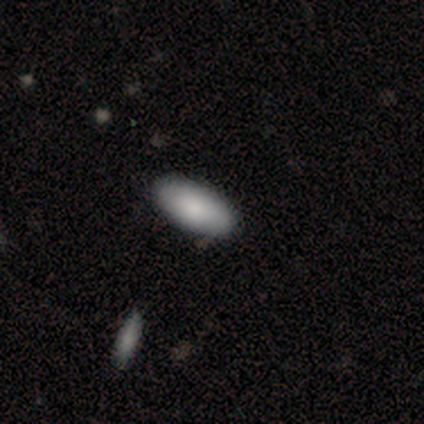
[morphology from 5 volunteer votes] A smooth galaxy with no disk features (80%) that is in between round and cigar-shaped (100%). Merging: none (75%).